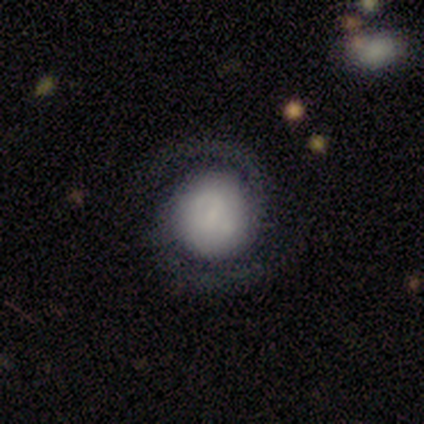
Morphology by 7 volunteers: featured or disk 57%, smooth 43%, star or artifact 0%. Down the decision tree: edge-on disk — no (75%); bar — weak (67%); spiral arms — yes (67%); spiral arm count — 2 (50%, tied with can't tell); spiral winding — loose (100%); bulge size — small (100%); merging — none (43%).